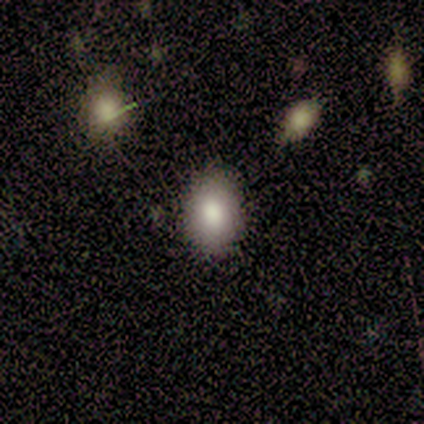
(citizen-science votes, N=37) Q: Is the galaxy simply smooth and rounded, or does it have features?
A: smooth — 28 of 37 (76%).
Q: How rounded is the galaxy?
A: in between — 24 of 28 (86%).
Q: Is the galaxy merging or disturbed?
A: none — 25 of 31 (81%).